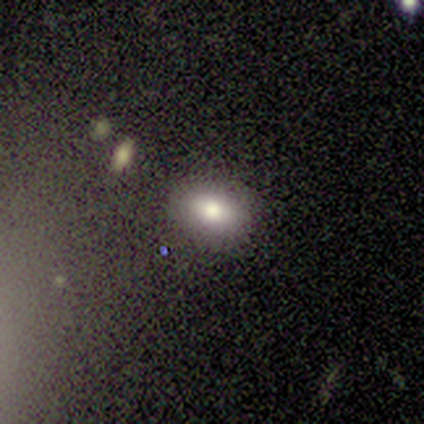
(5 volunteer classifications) A smooth galaxy with no disk features (100%) that is in between round and cigar-shaped (60%).

Vote fractions:
- Smooth or featured? smooth: 100% / featured or disk: 0% / star or artifact: 0%
- How rounded? in between: 60% / round: 40% / cigar-shaped: 0%
- Merging? none: 80% / minor disturbance: 20% / major disturbance: 0% / merger: 0%